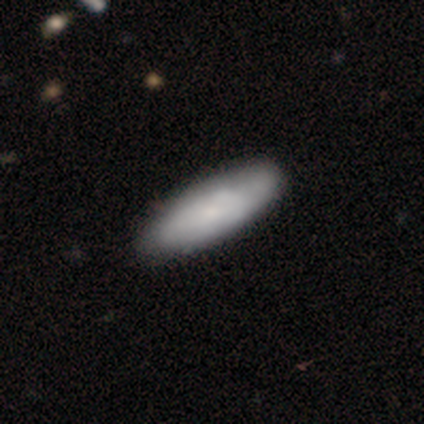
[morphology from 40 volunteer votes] A smooth galaxy with no disk features (70%) that is in between round and cigar-shaped (71%). Merging: none (79%).